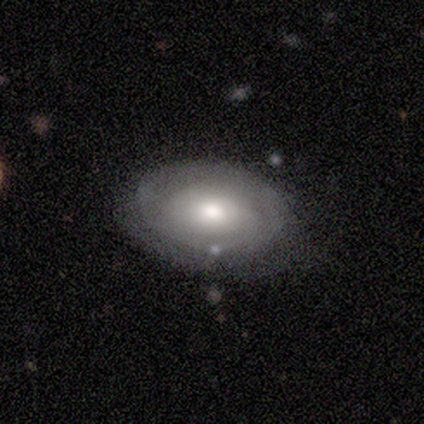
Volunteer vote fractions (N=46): This appears to be a featured or disk galaxy (57%) with no bar (96%), tight (82%) spiral arms (65%) and a moderate central bulge (69%). Merging: none (67%).